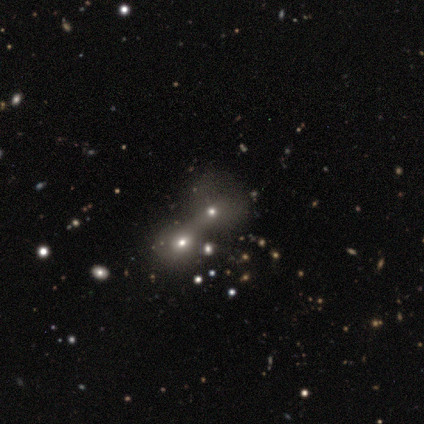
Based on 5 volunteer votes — Morphology: type=featured or disk (60%); edge-on=no (100%); bar=no (100%); spiral arms=no (100%); bulge=small (67%); merging=merger (80%).